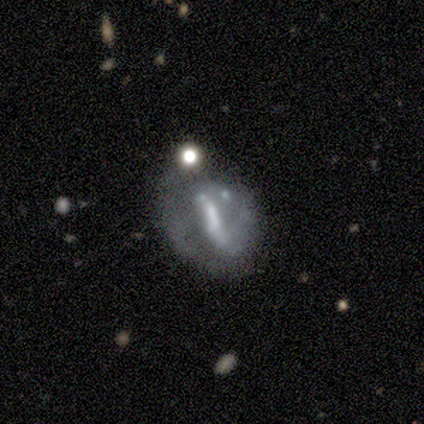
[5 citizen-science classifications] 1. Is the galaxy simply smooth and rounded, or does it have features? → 60% featured or disk, 20% smooth, 20% star or artifact.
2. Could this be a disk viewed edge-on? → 100% no, 0% yes.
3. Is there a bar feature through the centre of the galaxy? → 33% strong (tied), 33% weak (tied), 33% no (tied).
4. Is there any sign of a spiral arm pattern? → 100% no, 0% yes.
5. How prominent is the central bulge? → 33% large (tied), 33% small (tied), 33% none (tied), 0% dominant, 0% moderate.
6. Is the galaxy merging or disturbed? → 50% major disturbance, 25% none, 25% minor disturbance, 0% merger.